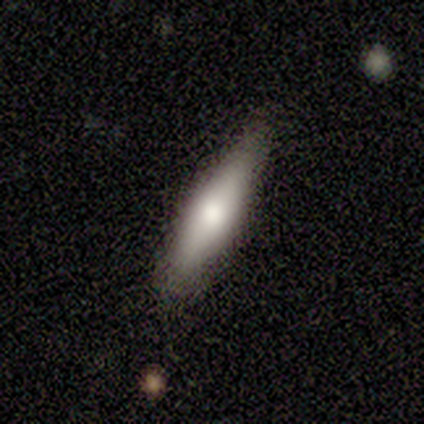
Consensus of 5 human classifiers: Smooth or featured: smooth — 60% (featured or disk — 20%)
How rounded: cigar-shaped — 67% (in between — 33%)
Merging: none — 100%